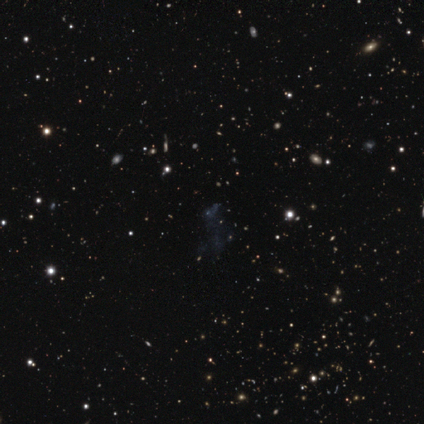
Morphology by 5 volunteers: Smooth or featured: star or artifact — 80% (featured or disk — 20%)